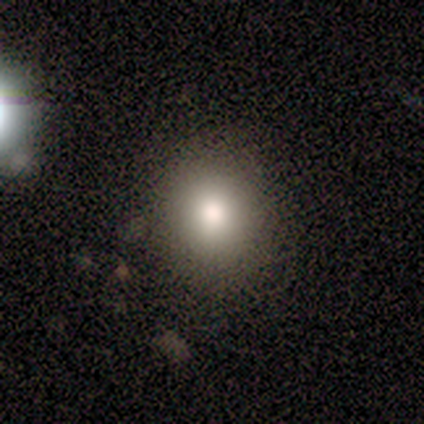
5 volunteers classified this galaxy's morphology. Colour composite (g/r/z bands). It shows a smooth galaxy with no disk features (40%, tied with featured or disk) that is round (100%). Merging: none (75%).